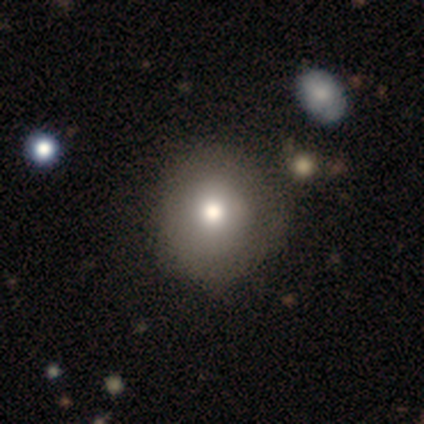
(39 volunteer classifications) This is likely a smooth galaxy (79%). How rounded: clearly round (94%). Merging: possibly none (56%).